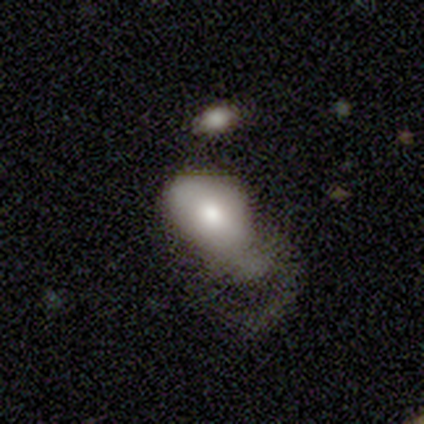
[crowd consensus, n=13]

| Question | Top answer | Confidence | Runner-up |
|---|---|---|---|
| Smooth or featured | smooth | 62% | featured or disk (38%) |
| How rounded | in between | 75% | round (25%) |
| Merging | none | 46% | major disturbance (31%) |